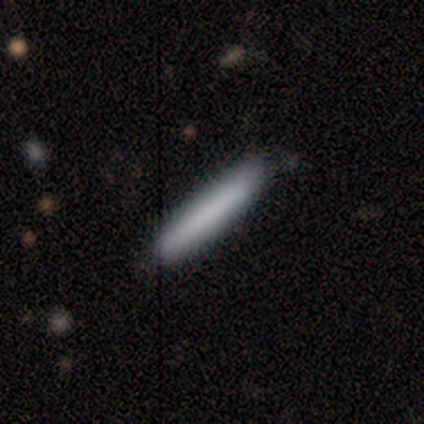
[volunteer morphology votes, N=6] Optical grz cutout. It shows a smooth galaxy with no disk features (50%, tied with featured or disk) that is cigar-shaped (100%). Merging: none (83%).